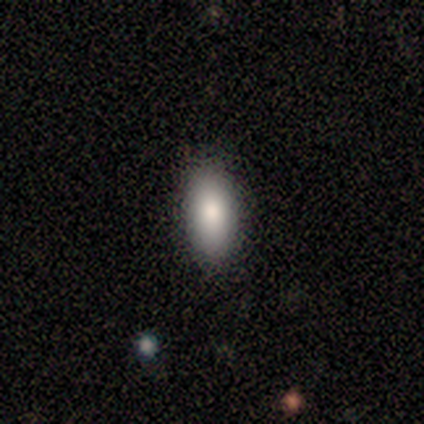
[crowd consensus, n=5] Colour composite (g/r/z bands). It shows a smooth galaxy with no disk features (80%) that is in between round and cigar-shaped (75%). Merging: none (100%).